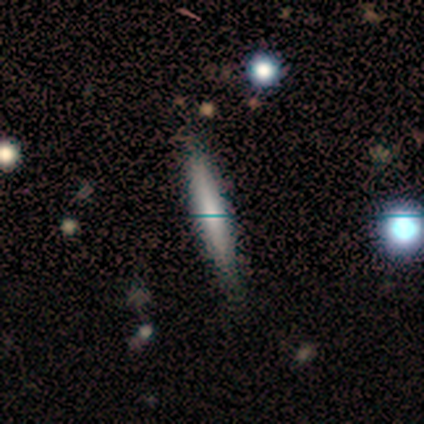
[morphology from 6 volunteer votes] This is clearly a smooth galaxy (83%). How rounded: clearly cigar-shaped (100%). Merging: clearly none (100%).